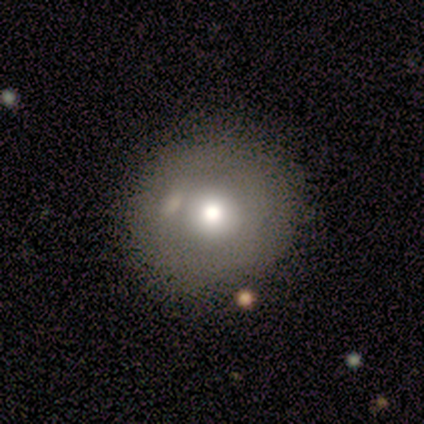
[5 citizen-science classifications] Q: Smooth or featured?
A: smooth (80%); runner-up: featured or disk (20%)
Q: How rounded?
A: round (100%)
Q: Merging?
A: none (100%)